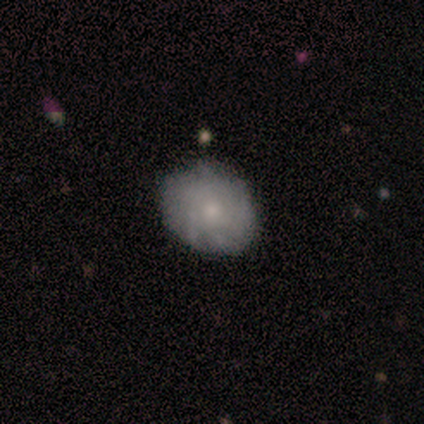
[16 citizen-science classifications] Morphology: type=smooth (75%); roundness=round (58%); merging=none (80%).